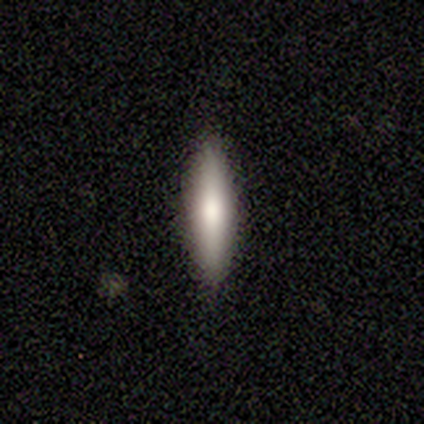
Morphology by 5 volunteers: A smooth galaxy with no disk features (80%) that is cigar-shaped (75%). Merging: none (100%).